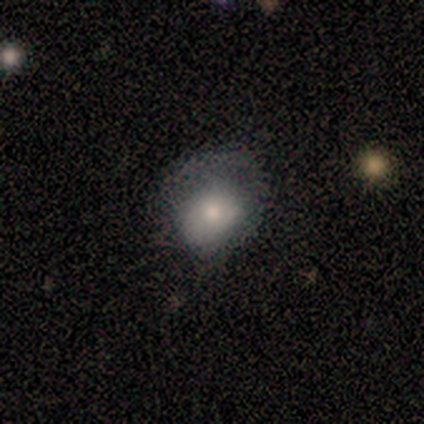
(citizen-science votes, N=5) Smooth or featured?
  - smooth: 80% *
  - featured or disk: 20%
  - star or artifact: 0%
How rounded?
  - in between: 75% *
  - round: 25%
  - cigar-shaped: 0%
Merging?
  - none: 40% * (tied)
  - minor disturbance: 40% * (tied)
  - major disturbance: 20%
  - merger: 0%